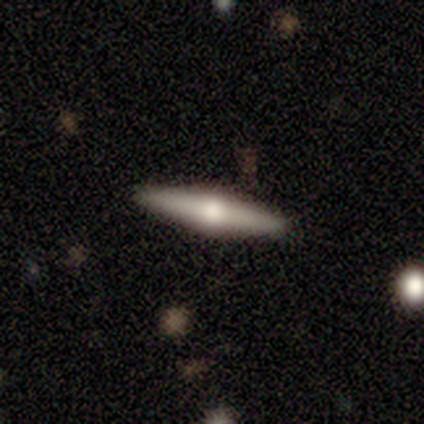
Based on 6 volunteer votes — Q: Smooth or featured?
A: featured or disk (100%)
Q: Edge-on disk?
A: yes (100%)
Q: Edge-on bulge?
A: rounded (100%)
Q: Merging?
A: none (83%); runner-up: minor disturbance (17%)